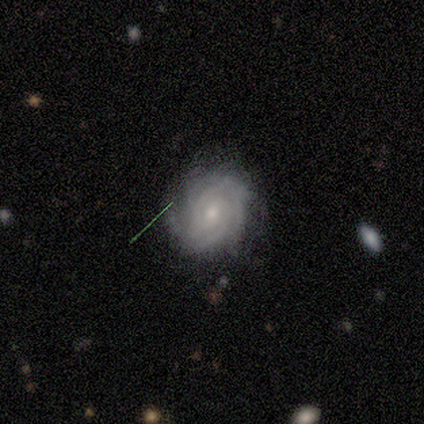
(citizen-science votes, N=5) featured or disk 100%, smooth 0%, star or artifact 0%. Down the decision tree: edge-on disk — no (100%); bar — no (80%); spiral arms — yes (100%); spiral arm count — can't tell (40%); spiral winding — tight (100%); bulge size — small (60%); merging — none (100%).